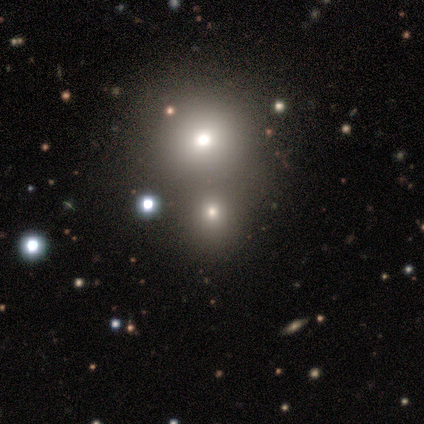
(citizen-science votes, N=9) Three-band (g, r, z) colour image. It shows a smooth galaxy with no disk features (56%) that is round (100%). Merging: none (50%, tied with merger).